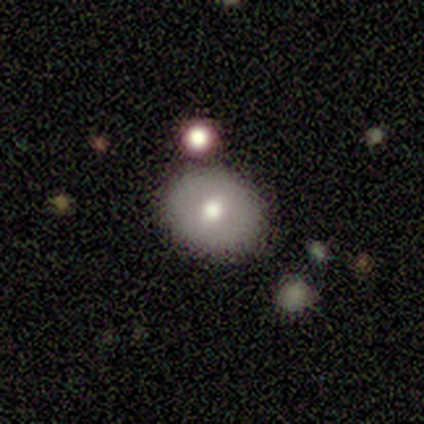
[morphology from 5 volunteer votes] A featured or disk galaxy (80%) with a weak bar (67%), no spiral arms (100%) and a moderate central bulge (100%).

Vote fractions:
- Smooth or featured? featured or disk: 80% / smooth: 20% / star or artifact: 0%
- Edge-on disk? no: 75% / yes: 25%
- Bar? weak: 67% / no: 33% / strong: 0%
- Spiral arms? no: 100% / yes: 0%
- Bulge size? moderate: 100% / dominant: 0% / large: 0% / small: 0% / none: 0%
- Merging? none: 80% / merger: 20% / minor disturbance: 0% / major disturbance: 0%